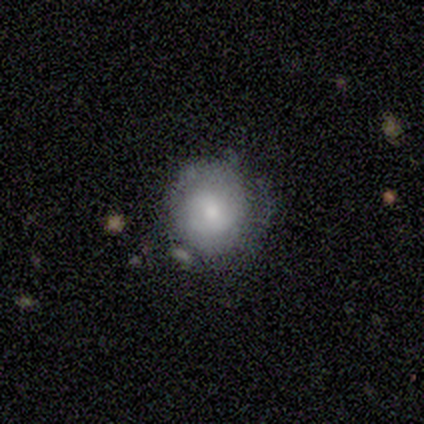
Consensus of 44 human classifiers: A smooth galaxy with no disk features (59%) that is round (92%). Merging: none (73%).